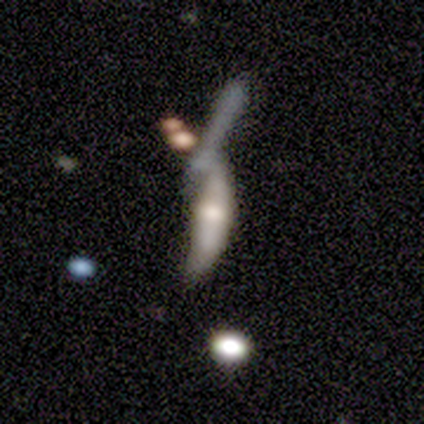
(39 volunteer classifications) Morphology: type=featured or disk (51%); edge-on=no (60%); bar=no (92%); spiral arms=no (83%); bulge=moderate (50%); merging=merger (46%).